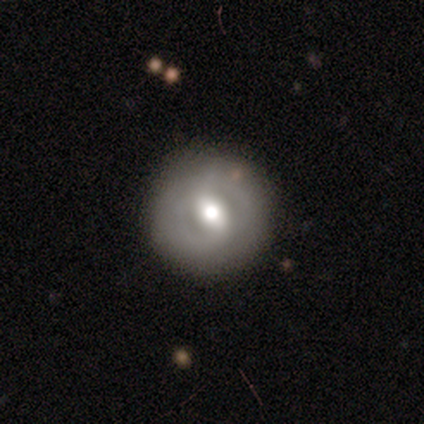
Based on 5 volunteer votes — Overall: featured or disk (80%). Edge-on disk: no (100%). Bar: strong (75%). Spiral arms: no (75%). Bulge size: moderate (50%; large 25%). Merging: none (100%).